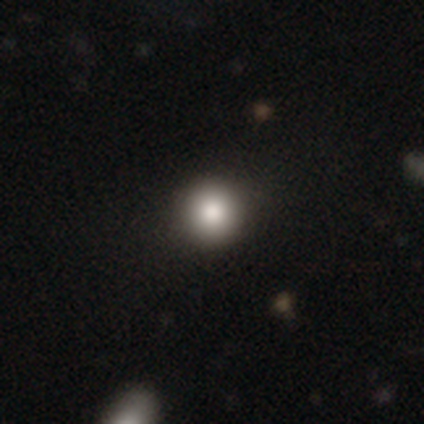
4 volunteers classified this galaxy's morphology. smooth-or-featured: smooth: 100% | featured or disk: 0% | star or artifact: 0%
  how-rounded: round: 100% | in between: 0% | cigar-shaped: 0%
  merging: none: 100% | minor disturbance: 0% | major disturbance: 0% | merger: 0%